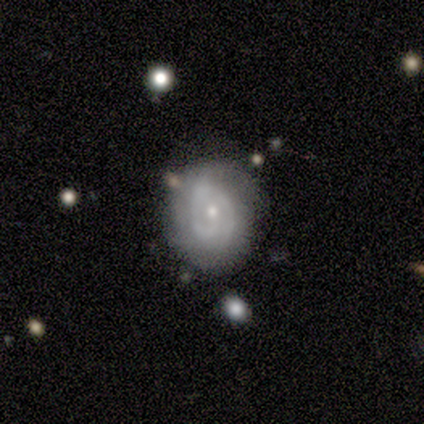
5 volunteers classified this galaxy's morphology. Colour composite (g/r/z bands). It shows a featured or disk galaxy (80%) with no bar (75%), 1 (67%) tight (67%) spiral arms (75%) and a small central bulge (75%). Merging: none (40%, tied with minor disturbance).